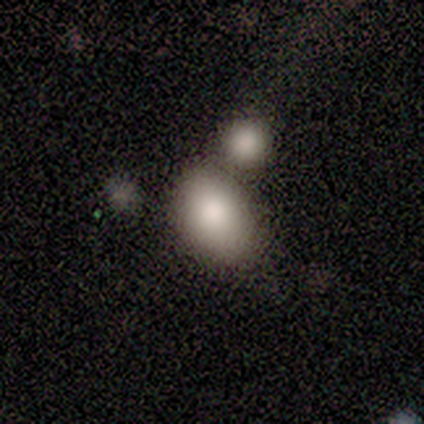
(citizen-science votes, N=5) smooth 80%, featured or disk 20%, star or artifact 0%. Down the decision tree: how rounded — in between (100%); merging — none (60%).